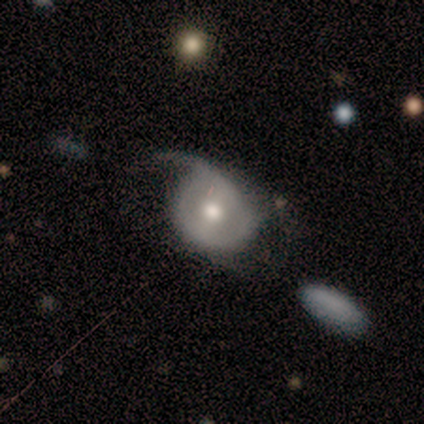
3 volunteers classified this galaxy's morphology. Volunteers were most divided on "spiral winding" (2-way tie): medium: 50%, loose: 50%, tight: 0%; "spiral arm count" (2-way tie): 1: 50%, 2: 50%, 3: 0%, 4: 0%, more than 4: 0%, can't tell: 0%. More confident: smooth or featured — featured or disk (100%); edge-on disk — no (100%); bulge size — moderate (100%); merging — minor disturbance (100%); bar — no (67%); spiral arms — yes (67%).